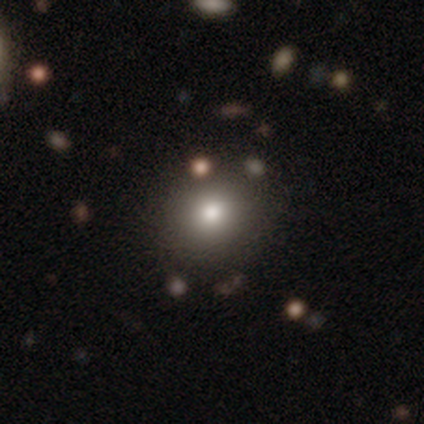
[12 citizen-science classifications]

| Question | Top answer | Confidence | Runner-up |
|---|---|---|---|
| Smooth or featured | smooth | 83% | featured or disk (8%) |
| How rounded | round | 90% | in between (10%) |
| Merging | none | 82% | minor disturbance (9%) |